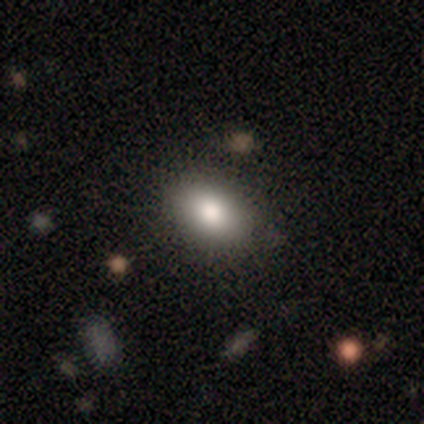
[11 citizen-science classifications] Morphology: type=smooth (73%); roundness=in between (88%); merging=none (89%).